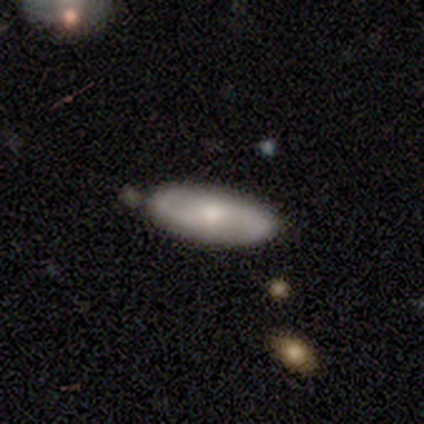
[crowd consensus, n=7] smooth_or_featured: smooth (p=0.71) [alt: featured or disk p=0.29]
how_rounded: in between (p=0.80) [alt: cigar-shaped p=0.20]
merging: none (p=0.86) [alt: minor disturbance p=0.14]